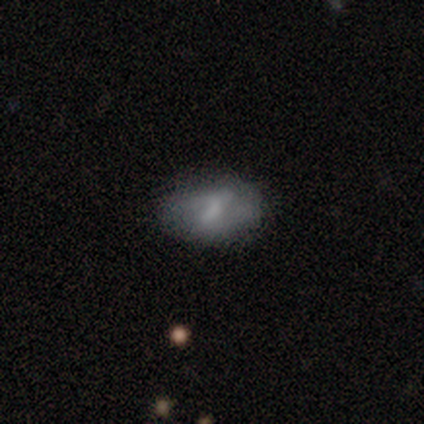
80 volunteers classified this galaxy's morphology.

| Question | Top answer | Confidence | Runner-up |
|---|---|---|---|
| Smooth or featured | featured or disk | 49% | smooth (44%) |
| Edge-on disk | no | 97% | yes (3%) |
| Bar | weak | 53% | strong (32%) |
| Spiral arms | no | 55% | yes (45%) |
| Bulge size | none | 39% | small (34%) |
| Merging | none | 38% | minor disturbance (11%) |